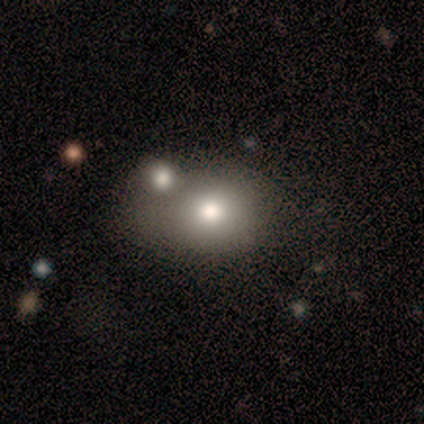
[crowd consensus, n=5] A smooth galaxy with no disk features (60%) that is round (100%). Merging: none (75%).